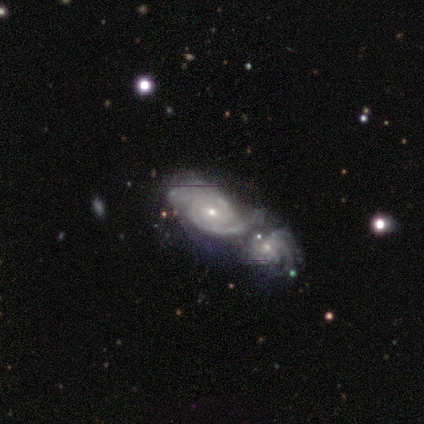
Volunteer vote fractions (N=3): smooth_or_featured: featured or disk (p=1.00)
disk_edge_on: no (p=1.00)
bar: no (p=0.67) [alt: weak p=0.33]
has_spiral_arms: yes (p=1.00)
spiral_winding: tight (p=0.67) [alt: medium p=0.33]
spiral_arm_count: 2 (p=1.00)
bulge_size: small (p=0.67) [alt: moderate p=0.33]
merging: merger (p=0.67) [alt: minor disturbance p=0.33]